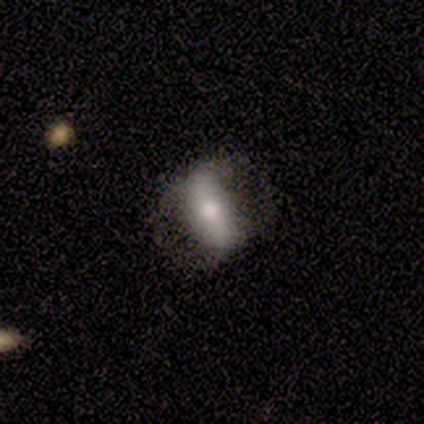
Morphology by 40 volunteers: A featured or disk galaxy (50%) with a strong bar (53%), no spiral arms (63%) and a moderate central bulge (58%).

Vote fractions:
- Smooth or featured? featured or disk: 50% / smooth: 48% / star or artifact: 2%
- Edge-on disk? no: 95% / yes: 5%
- Bar? strong: 53% / no: 37% / weak: 11%
- Spiral arms? no: 63% / yes: 37%
- Bulge size? moderate: 58% / large: 26% / small: 16% / dominant: 0% / none: 0%
- Merging? none: 44% / minor disturbance: 21% / major disturbance: 21% / merger: 0%